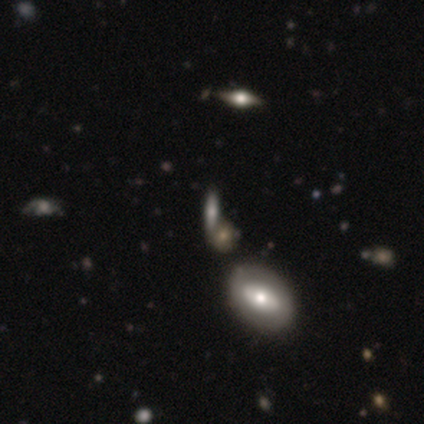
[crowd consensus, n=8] smooth_or_featured: smooth (p=0.62) [alt: featured or disk p=0.25]
how_rounded: in between (p=0.60) [alt: cigar-shaped p=0.40]
merging: merger (p=0.57) [alt: none p=0.29]